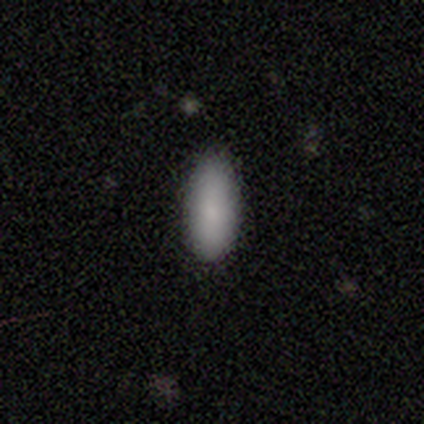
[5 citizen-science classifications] A smooth galaxy with no disk features (100%) that is in between round and cigar-shaped (80%). Merging: none (100%).